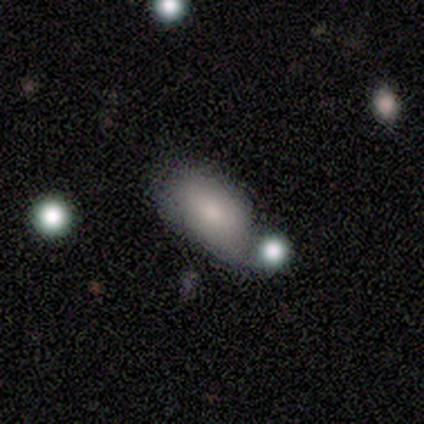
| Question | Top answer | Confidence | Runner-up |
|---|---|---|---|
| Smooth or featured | smooth | 83% | featured or disk (17%) |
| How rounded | in between | 100% | — |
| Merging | none | 50% | merger (33%) |